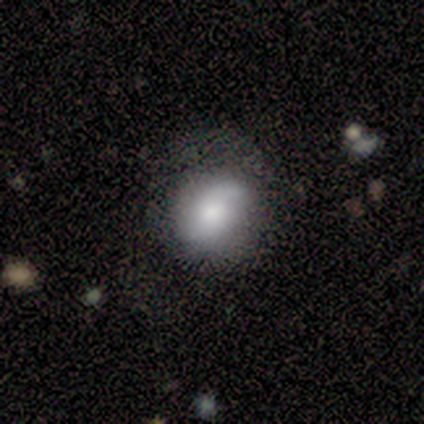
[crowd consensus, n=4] Q: Smooth or featured?
A: smooth (50%); tied with: featured or disk (50%)
Q: How rounded?
A: round (50%); tied with: in between (50%)
Q: Merging?
A: none (50%); tied with: major disturbance (50%)